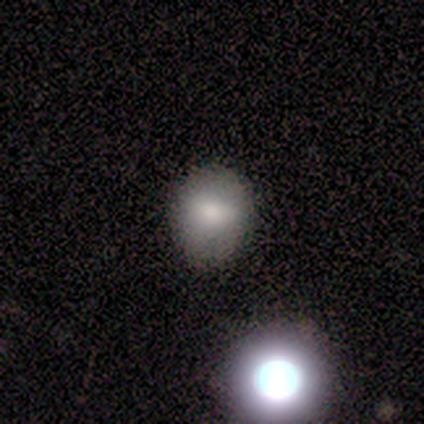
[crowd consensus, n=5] Smooth or featured?
  - featured or disk: 60% *
  - smooth: 40%
  - star or artifact: 0%
Edge-on disk?
  - no: 67% *
  - yes: 33%
Bar?
  - strong: 50% * (tied)
  - weak: 50% * (tied)
  - no: 0%
Spiral arms?
  - yes: 50% * (tied)
  - no: 50% * (tied)
Spiral winding?
  - loose: 100% *
  - tight: 0%
  - medium: 0%
Spiral arm count?
  - can't tell: 100% *
  - 1: 0%
  - 2: 0%
  - 3: 0%
  - 4: 0%
  - more than 4: 0%
Bulge size?
  - dominant: 50% * (tied)
  - large: 50% * (tied)
  - moderate: 0%
  - small: 0%
  - none: 0%
Merging?
  - none: 60% *
  - minor disturbance: 20%
  - major disturbance: 20%
  - merger: 0%